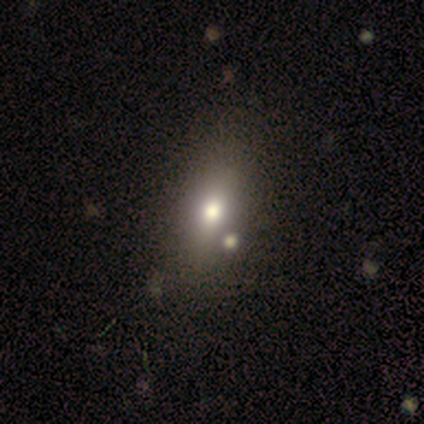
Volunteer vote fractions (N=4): smooth_or_featured: smooth (p=0.75) [alt: featured or disk p=0.25]
how_rounded: in between (p=1.00)
merging: none (p=1.00)